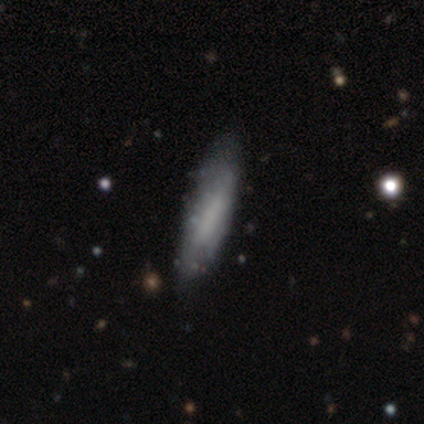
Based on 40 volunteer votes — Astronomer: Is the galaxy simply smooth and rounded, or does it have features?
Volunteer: featured or disk — 50% (runner-up: smooth, 42%).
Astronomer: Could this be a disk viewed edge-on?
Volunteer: no — 80%.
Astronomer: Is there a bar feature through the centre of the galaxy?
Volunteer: no — 44% (runner-up: weak, 31%).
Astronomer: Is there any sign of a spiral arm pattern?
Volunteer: no — 75%.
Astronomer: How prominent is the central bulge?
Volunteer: none — 88%.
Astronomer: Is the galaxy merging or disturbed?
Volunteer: none — 43% (runner-up: minor disturbance, 19%).